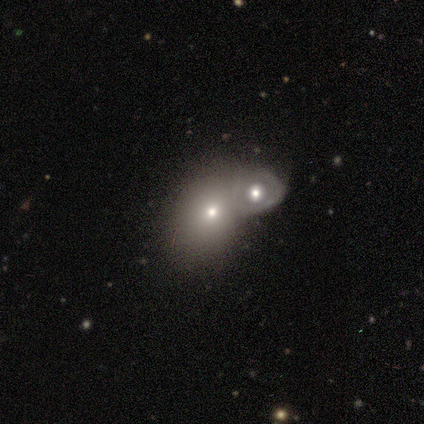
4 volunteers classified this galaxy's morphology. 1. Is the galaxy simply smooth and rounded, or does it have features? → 50% smooth, 25% featured or disk, 25% star or artifact.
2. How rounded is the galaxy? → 100% round, 0% in between, 0% cigar-shaped.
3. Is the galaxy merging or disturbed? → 67% merger, 33% minor disturbance, 0% none, 0% major disturbance.